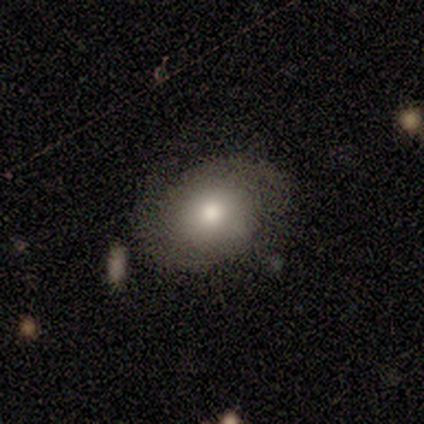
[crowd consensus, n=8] smooth 62%, featured or disk 25%, star or artifact 12%. Down the decision tree: how rounded — in between (60%); merging — none (71%).